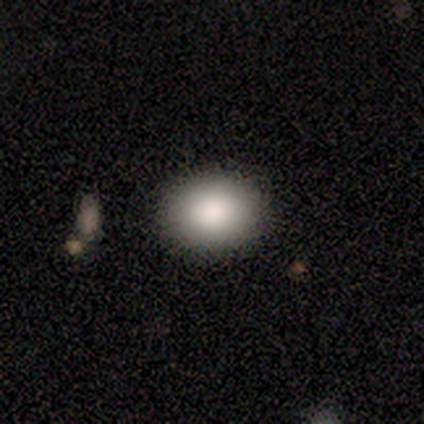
smooth 90%, featured or disk 5%, star or artifact 5%. Down the decision tree: how rounded — round (50%, tied with in between); merging — none (95%).